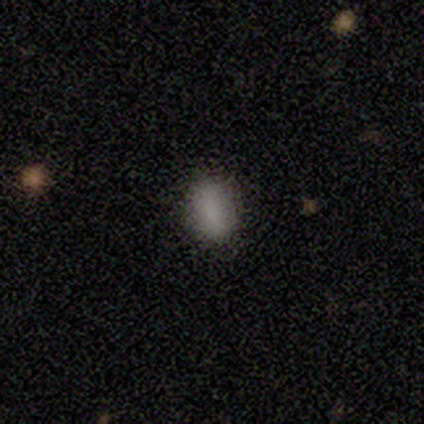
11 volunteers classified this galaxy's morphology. This is clearly a smooth galaxy (100%). How rounded: likely round (64%). Merging: clearly none (91%).